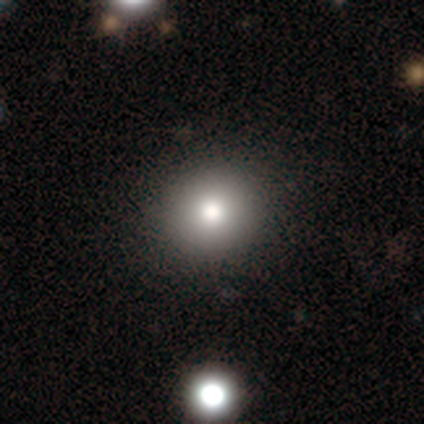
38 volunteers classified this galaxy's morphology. type=smooth (74%); roundness=round (89%); merging=none (66%).